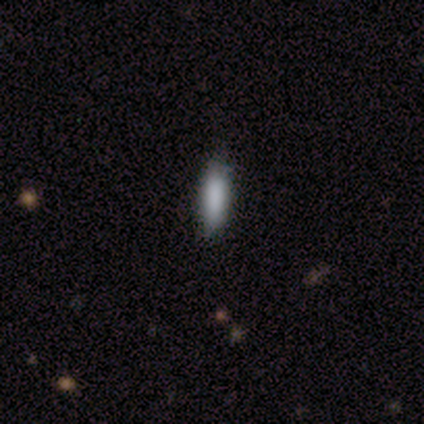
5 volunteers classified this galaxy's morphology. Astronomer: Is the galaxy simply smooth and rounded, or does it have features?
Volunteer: smooth — 80%.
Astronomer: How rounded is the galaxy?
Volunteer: in between — 50%, tied with cigar-shaped at 50%.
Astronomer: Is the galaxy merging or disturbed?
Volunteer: none — 100%.